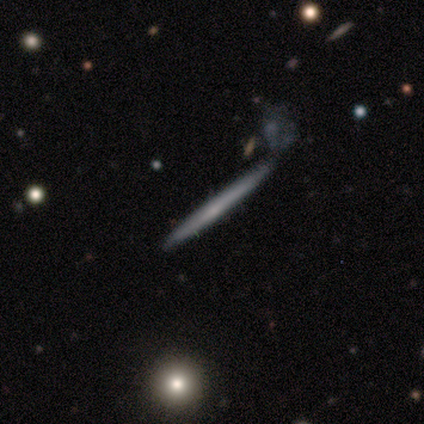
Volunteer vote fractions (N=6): Smooth or featured? smooth (50%, tied with featured or disk)
How rounded? cigar-shaped (100%)
Merging? none (83%)